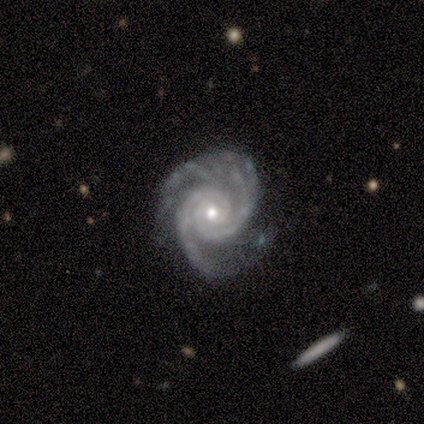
Smooth or featured: featured or disk — 100%
Edge-on disk: no — 100%
Bar: no — 75% (weak — 25%)
Spiral arms: yes — 100%
Spiral winding: tight — 75% (medium — 25%)
Spiral arm count: 2 — 62% (4 — 25%)
Bulge size: small — 75% (moderate — 25%)
Merging: none — 50% (minor disturbance — 38%)